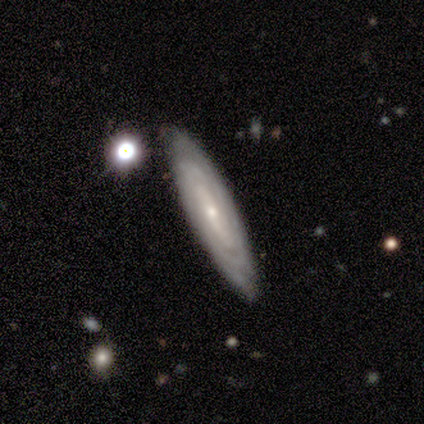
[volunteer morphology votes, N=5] Smooth or featured: featured or disk — 100%
Edge-on disk: no — 80% (yes — 20%)
Bar: weak — 50% (strong — 25%)
Spiral arms: yes — 100%
Spiral winding: tight — 100%
Spiral arm count: 2 — 50% (4 — 25%)
Bulge size: small — 75% (large — 25%)
Merging: none — 100%